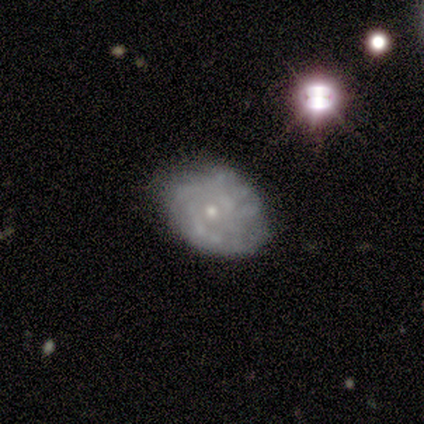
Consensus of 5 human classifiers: Smooth or featured? featured or disk (100%)
Edge-on disk? no (100%)
Bar? no (100%)
Spiral arms? yes (80%)
Spiral winding? tight (50%)
Spiral arm count? can't tell (75%)
Bulge size? small (80%)
Merging? none (100%)